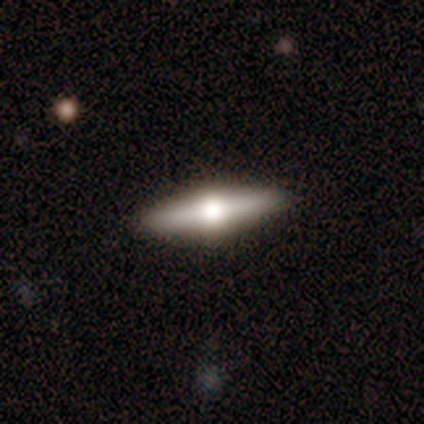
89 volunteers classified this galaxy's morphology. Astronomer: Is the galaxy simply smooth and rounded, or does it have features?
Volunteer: featured or disk — 52% (runner-up: smooth, 43%).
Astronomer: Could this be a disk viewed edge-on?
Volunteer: yes — 100%.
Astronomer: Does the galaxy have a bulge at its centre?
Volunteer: rounded — 100%.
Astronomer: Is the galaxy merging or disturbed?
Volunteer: none — 95%.